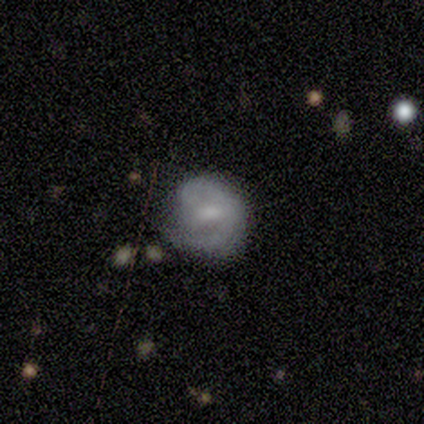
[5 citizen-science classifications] Q: Smooth or featured?
A: featured or disk (60%); runner-up: smooth (40%)
Q: Edge-on disk?
A: no (100%)
Q: Bar?
A: weak (100%)
Q: Spiral arms?
A: yes (100%)
Q: Spiral winding?
A: medium (100%)
Q: Spiral arm count?
A: 2 (100%)
Q: Bulge size?
A: moderate (33%); tied with: small (33%); none (33%)
Q: Merging?
A: none (60%); runner-up: major disturbance (40%)